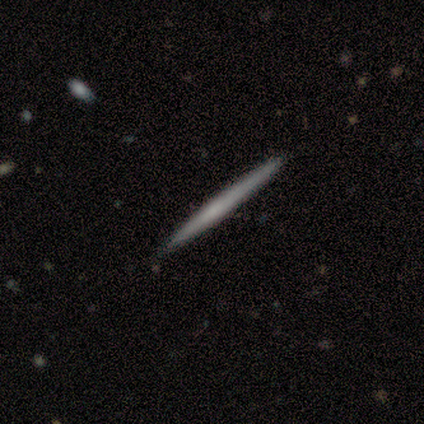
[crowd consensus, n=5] smooth 60%, featured or disk 20%, star or artifact 20%. Down the decision tree: how rounded — cigar-shaped (100%); merging — none (100%).